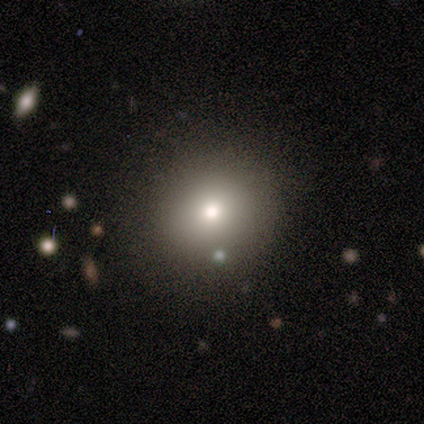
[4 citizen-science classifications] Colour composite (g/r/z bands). It shows a smooth galaxy with no disk features (100%) that is round (100%). Merging: minor disturbance (50%).